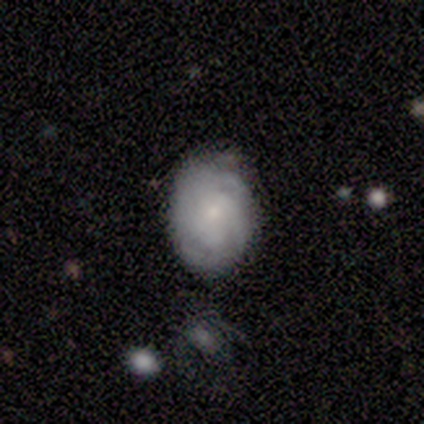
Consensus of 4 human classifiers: A featured or disk galaxy (75%) with no bar (67%), tight (100%) spiral arms (100%) and a small central bulge (67%).

Vote fractions:
- Smooth or featured? featured or disk: 75% / smooth: 25% / star or artifact: 0%
- Edge-on disk? no: 100% / yes: 0%
- Bar? no: 67% / weak: 33% / strong: 0%
- Spiral arms? yes: 100% / no: 0%
- Spiral winding? tight: 100% / medium: 0% / loose: 0%
- Spiral arm count? can't tell: 100% / 1: 0% / 2: 0% / 3: 0% / 4: 0% / more than 4: 0%
- Bulge size? small: 67% / moderate: 33% / dominant: 0% / large: 0% / none: 0%
- Merging? none: 75% / minor disturbance: 25% / major disturbance: 0% / merger: 0%